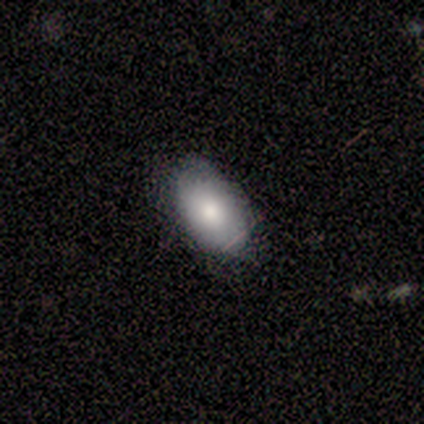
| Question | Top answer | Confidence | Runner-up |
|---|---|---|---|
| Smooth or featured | smooth | 100% | — |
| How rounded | in between | 100% | — |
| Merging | none | 80% | minor disturbance (20%) |